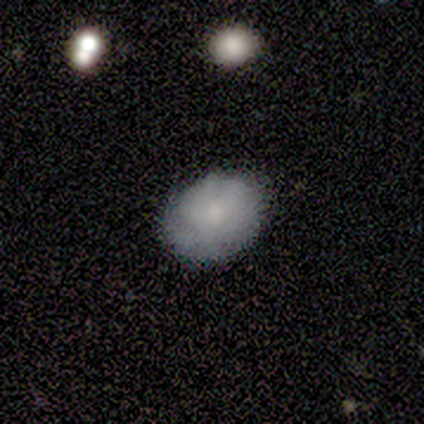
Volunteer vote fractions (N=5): smooth 80%, star or artifact 20%, featured or disk 0%. Down the decision tree: how rounded — round (50%, tied with in between); merging — none (75%).